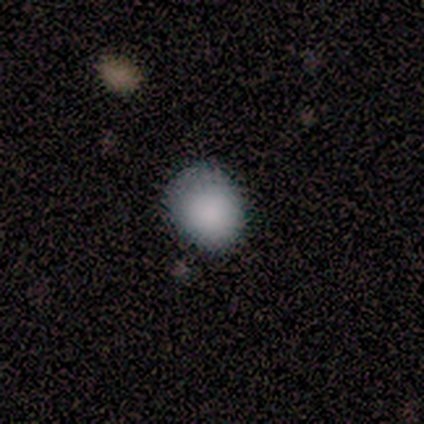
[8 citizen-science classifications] Overall: smooth (88%). How rounded: in between (57%; round 43%). Merging: none (57%; minor disturbance 43%).